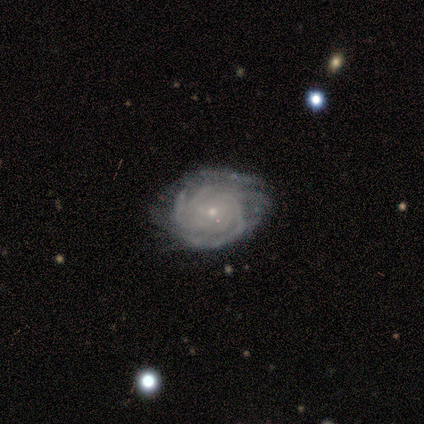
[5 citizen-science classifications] Volunteers were most divided on "merging": minor disturbance: 60%, none: 40%, major disturbance: 0%, merger: 0%. More confident: edge-on disk — no (100%); bar — no (100%); spiral arms — yes (100%); spiral winding — tight (100%); bulge size — small (100%); smooth or featured — featured or disk (80%); spiral arm count — can't tell (75%).